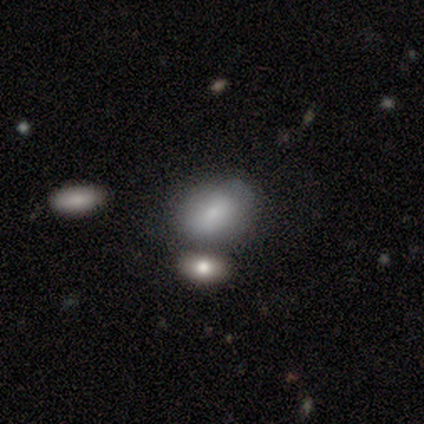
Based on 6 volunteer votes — Morphology: type=smooth (83%); roundness=in between (60%); merging=none (50%).